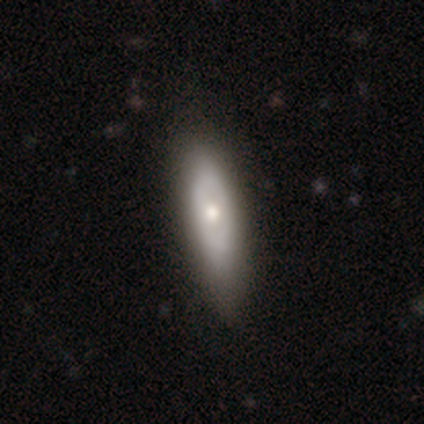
smooth-or-featured: smooth: 56% | featured or disk: 44% | star or artifact: 0%
  how-rounded: cigar-shaped: 52% | in between: 48% | round: 0%
  merging: none: 56% | minor disturbance: 15% | major disturbance: 2% | merger: 0%